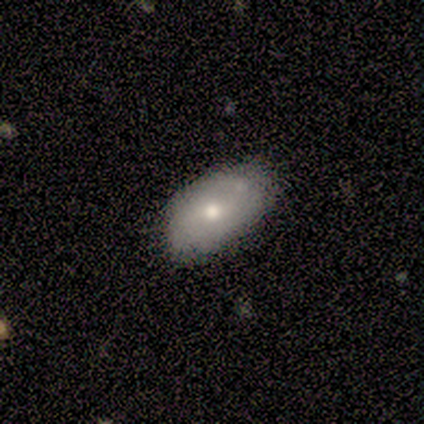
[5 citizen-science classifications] Smooth or featured: smooth — 60% (featured or disk — 40%)
How rounded: in between — 100%
Merging: none — 80% (minor disturbance — 20%)